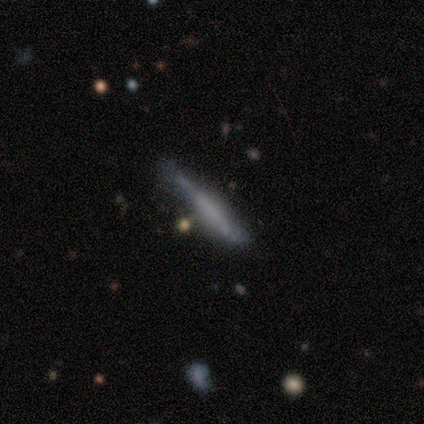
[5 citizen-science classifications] This appears to be a featured or disk galaxy (80%) viewed edge-on (100%) with a boxy central bulge (50%, tied with none). Merging: none (40%).